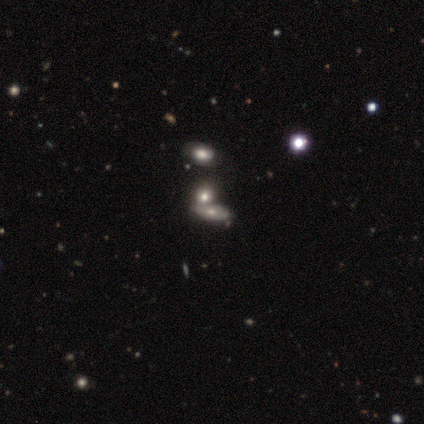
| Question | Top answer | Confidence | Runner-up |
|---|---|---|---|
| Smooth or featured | smooth | 60% | featured or disk (20%) |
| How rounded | in between | 67% | round (33%) |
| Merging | none | 50% | tied: merger (50%) |